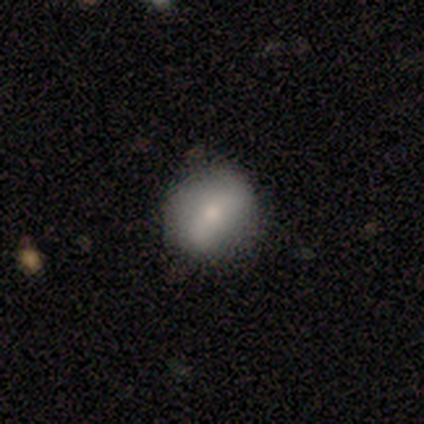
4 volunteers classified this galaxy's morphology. Volunteers were most divided on "smooth or featured": smooth: 75%, featured or disk: 25%, star or artifact: 0%. More confident: how rounded — round (100%); merging — none (100%).